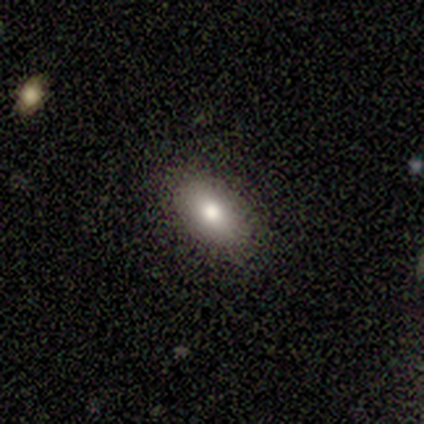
A smooth galaxy with no disk features (100%) that is in between round and cigar-shaped (100%). Merging: none (100%).